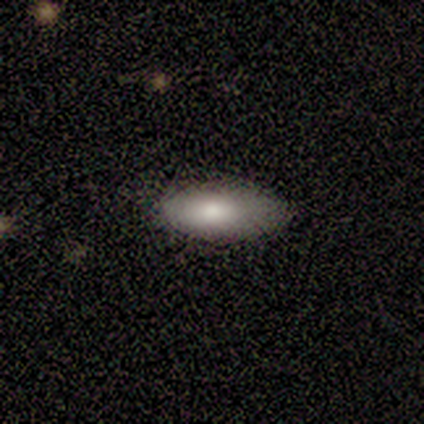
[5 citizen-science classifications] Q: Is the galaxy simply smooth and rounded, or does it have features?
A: smooth — 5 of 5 (100%).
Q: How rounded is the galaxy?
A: cigar-shaped — 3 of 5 (60%).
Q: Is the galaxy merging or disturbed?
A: none — 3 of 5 (60%).